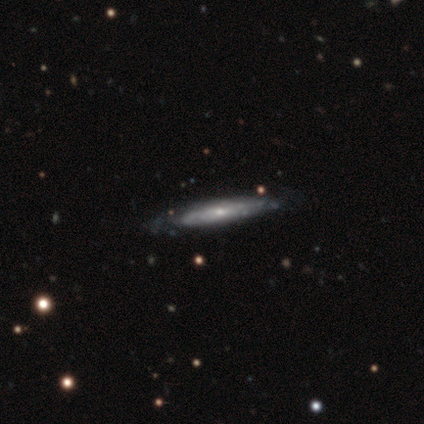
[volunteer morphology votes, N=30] Smooth or featured? featured or disk (80%)
Edge-on disk? yes (67%)
Edge-on bulge? none (56%)
Merging? none (55%)